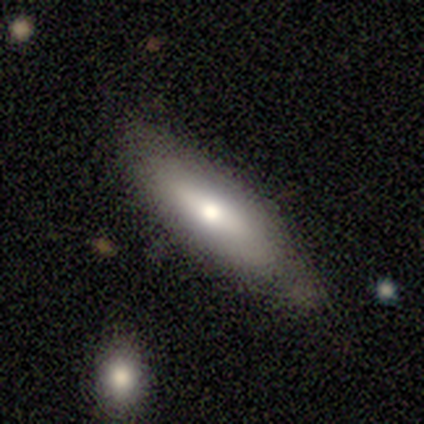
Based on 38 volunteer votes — Q: Smooth or featured?
A: smooth (63%); runner-up: featured or disk (32%)
Q: How rounded?
A: cigar-shaped (54%); runner-up: in between (42%)
Q: Merging?
A: none (75%); runner-up: minor disturbance (11%)